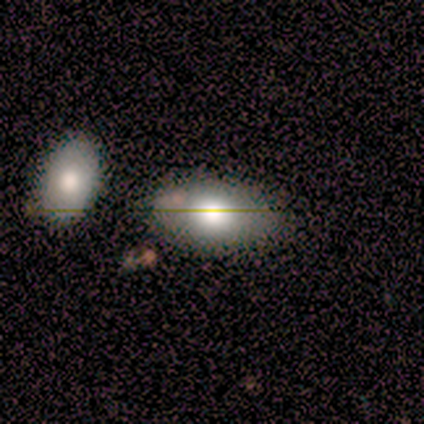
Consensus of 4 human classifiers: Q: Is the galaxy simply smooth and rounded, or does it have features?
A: smooth — 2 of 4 (50%, tied with star or artifact).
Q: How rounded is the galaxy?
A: in between — 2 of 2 (100%).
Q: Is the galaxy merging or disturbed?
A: none — 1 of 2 (50%, tied with merger).